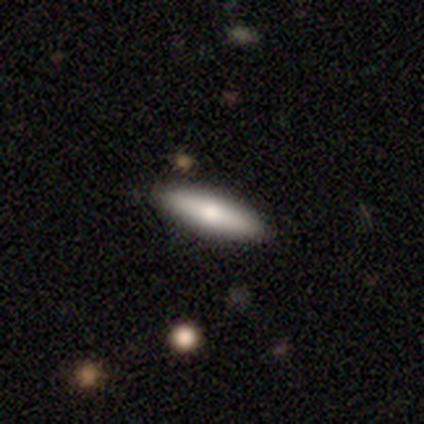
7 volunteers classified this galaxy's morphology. This appears to be a smooth galaxy with no disk features (71%) that is in between round and cigar-shaped (60%). Merging: none (86%).